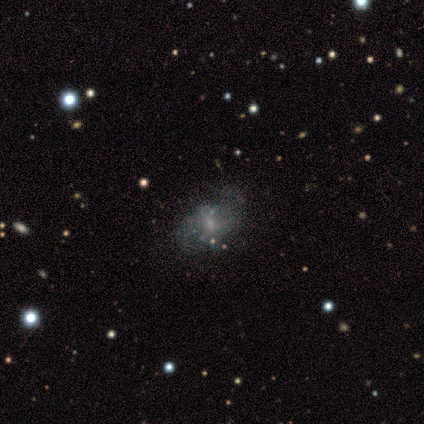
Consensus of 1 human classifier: Smooth or featured?
  - featured or disk: 100% *
  - smooth: 0%
  - star or artifact: 0%
Edge-on disk?
  - no: 100% *
  - yes: 0%
Bar?
  - no: 100% *
  - strong: 0%
  - weak: 0%
Spiral arms?
  - yes: 100% *
  - no: 0%
Spiral winding?
  - medium: 100% *
  - tight: 0%
  - loose: 0%
Spiral arm count?
  - can't tell: 100% *
  - 1: 0%
  - 2: 0%
  - 3: 0%
  - 4: 0%
  - more than 4: 0%
Bulge size?
  - moderate: 100% *
  - dominant: 0%
  - large: 0%
  - small: 0%
  - none: 0%
Merging?
  - none: 100% *
  - minor disturbance: 0%
  - major disturbance: 0%
  - merger: 0%